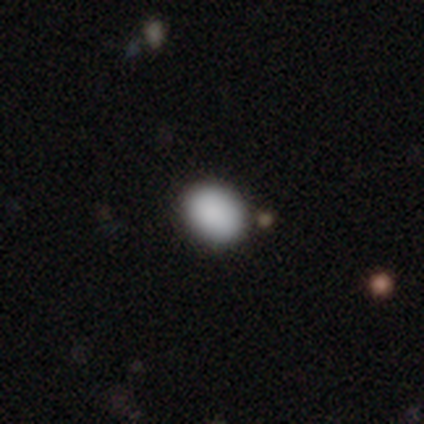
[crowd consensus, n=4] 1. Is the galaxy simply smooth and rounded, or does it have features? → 100% smooth, 0% featured or disk, 0% star or artifact.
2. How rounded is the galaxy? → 50% round (tied), 50% in between (tied), 0% cigar-shaped.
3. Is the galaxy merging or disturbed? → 100% none, 0% minor disturbance, 0% major disturbance, 0% merger.